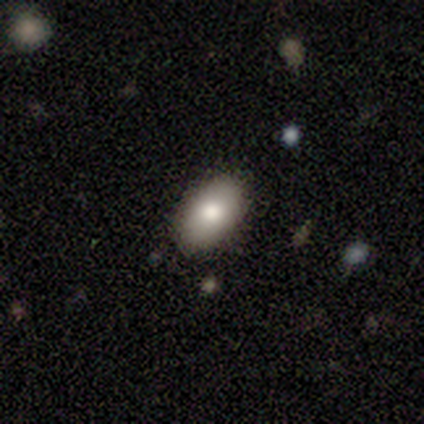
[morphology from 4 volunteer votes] Q: Smooth or featured?
A: smooth (50%); tied with: featured or disk (50%)
Q: How rounded?
A: in between (100%)
Q: Merging?
A: none (75%); runner-up: minor disturbance (25%)